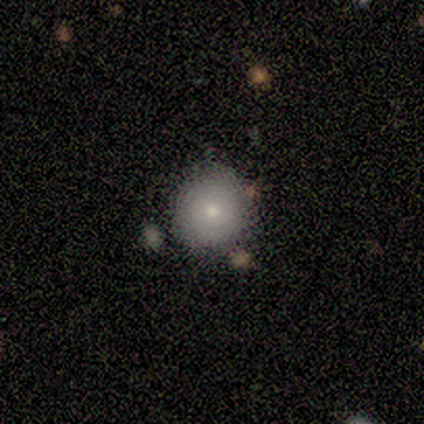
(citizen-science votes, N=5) smooth-or-featured: smooth: 60% | star or artifact: 40% | featured or disk: 0%
  how-rounded: round: 100% | in between: 0% | cigar-shaped: 0%
  merging: none: 67% | major disturbance: 33% | minor disturbance: 0% | merger: 0%